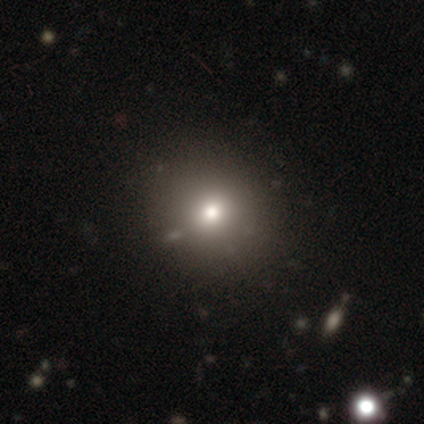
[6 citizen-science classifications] Smooth or featured: smooth — 100%
How rounded: round — 83% (in between — 17%)
Merging: none — 100%